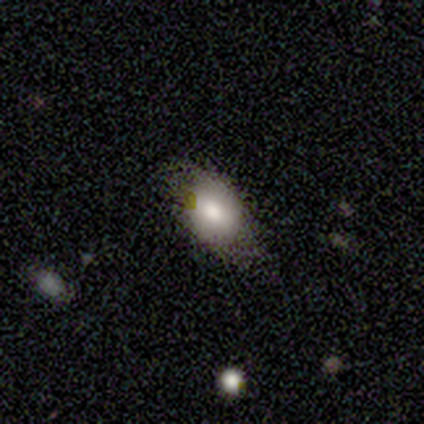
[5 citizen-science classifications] Smooth or featured?
  - smooth: 80% *
  - featured or disk: 20%
  - star or artifact: 0%
How rounded?
  - in between: 100% *
  - round: 0%
  - cigar-shaped: 0%
Merging?
  - minor disturbance: 80% *
  - none: 20%
  - major disturbance: 0%
  - merger: 0%